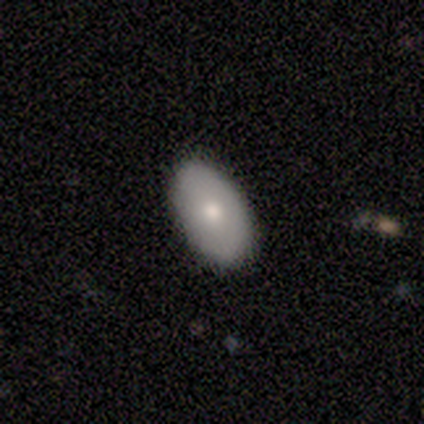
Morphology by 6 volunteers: This is possibly a featured or disk galaxy (50%). It is likely not viewed edge-on (67%). Bar: clearly no (100%). Spiral arm pattern: clearly no (100%). Central bulge: clearly moderate (100%). Merging: clearly none (80%).